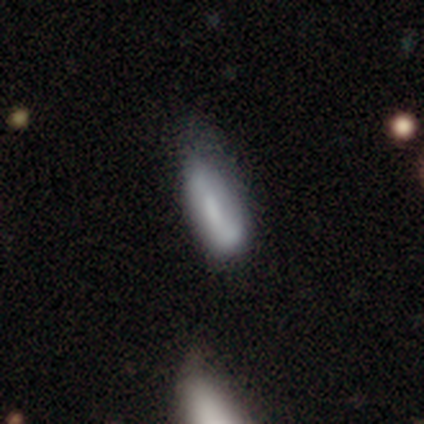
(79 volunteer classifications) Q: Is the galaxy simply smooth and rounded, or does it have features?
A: smooth — 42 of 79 (53%).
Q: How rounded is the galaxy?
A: in between — 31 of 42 (74%).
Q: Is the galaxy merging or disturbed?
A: minor disturbance — 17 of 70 (24%).